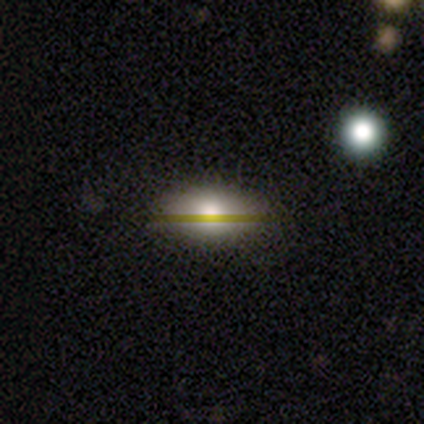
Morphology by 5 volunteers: Smooth or featured? 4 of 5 (80%) said smooth. How rounded? 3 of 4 (75%) said in between. Merging? 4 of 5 (80%) said none.